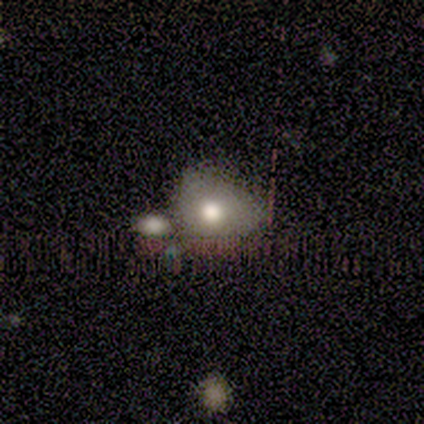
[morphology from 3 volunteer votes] Volunteers were most divided on "smooth or featured" (3-way tie): smooth: 33%, featured or disk: 33%, star or artifact: 33%; "merging" (2-way tie): none: 50%, minor disturbance: 50%, major disturbance: 0%, merger: 0%. More confident: how rounded — in between (100%).